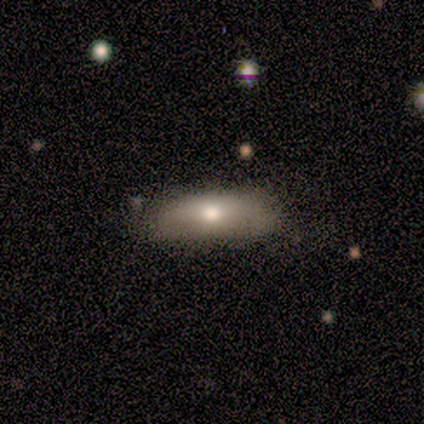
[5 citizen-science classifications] Smooth or featured? 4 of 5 (80%) said smooth. How rounded? 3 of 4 (75%) said in between. Merging? 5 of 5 (100%) said none.